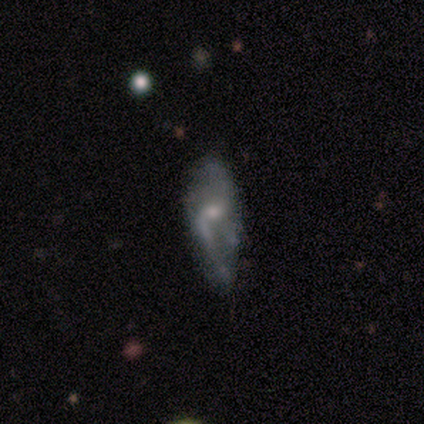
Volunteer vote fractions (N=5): smooth-or-featured: featured or disk: 80% | smooth: 20% | star or artifact: 0%
  disk-edge-on: no: 100% | yes: 0%
    bar: no: 75% | weak: 25% | strong: 0%
    has-spiral-arms: yes: 75% | no: 25%
      spiral-winding: loose: 100% | tight: 0% | medium: 0%
      spiral-arm-count: 2: 67% | can't tell: 33% | 1: 0% | 3: 0% | 4: 0% | more than 4: 0%
    bulge-size: moderate: 75% | small: 25% | dominant: 0% | large: 0% | none: 0%
  merging: minor disturbance: 60% | none: 20% | major disturbance: 20% | merger: 0%